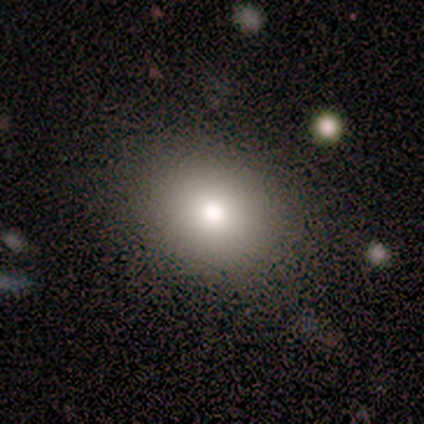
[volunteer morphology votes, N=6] Q: Smooth or featured?
A: smooth (100%)
Q: How rounded?
A: round (67%); runner-up: in between (33%)
Q: Merging?
A: none (100%)